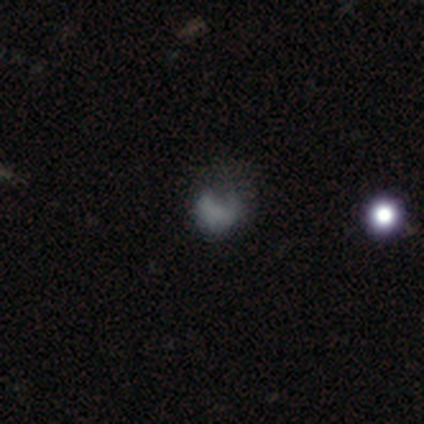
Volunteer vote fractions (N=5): A featured or disk galaxy (60%) with no bar (100%), no spiral arms (100%) and no central bulge (100%).

Vote fractions:
- Smooth or featured? featured or disk: 60% / smooth: 40% / star or artifact: 0%
- Edge-on disk? no: 100% / yes: 0%
- Bar? no: 100% / strong: 0% / weak: 0%
- Spiral arms? no: 100% / yes: 0%
- Bulge size? none: 100% / dominant: 0% / large: 0% / moderate: 0% / small: 0%
- Merging? none: 60% / major disturbance: 40% / minor disturbance: 0% / merger: 0%